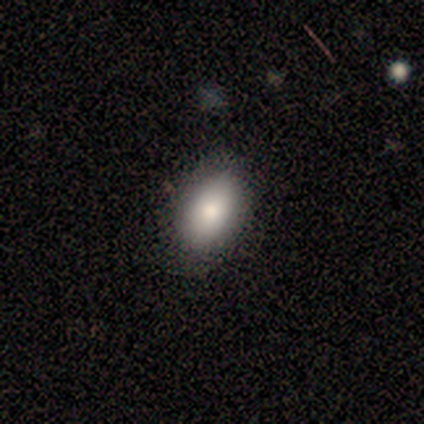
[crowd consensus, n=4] smooth 100%, featured or disk 0%, star or artifact 0%. Down the decision tree: how rounded — in between (75%); merging — none (75%).